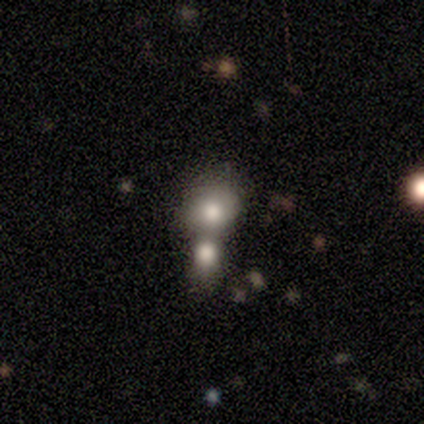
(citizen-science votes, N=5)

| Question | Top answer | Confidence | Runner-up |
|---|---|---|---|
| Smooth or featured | smooth | 60% | featured or disk (40%) |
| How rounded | round | 67% | in between (33%) |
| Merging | merger | 80% | none (20%) |